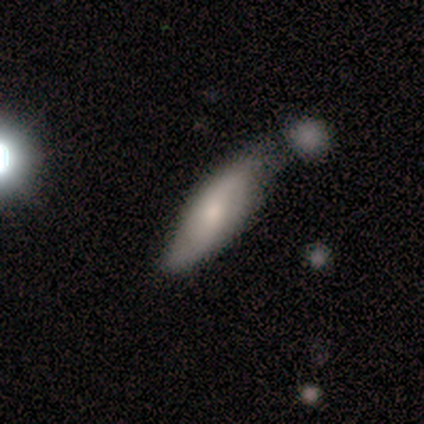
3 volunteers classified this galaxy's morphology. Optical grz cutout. It shows a smooth galaxy with no disk features (67%) that is in between round and cigar-shaped (50%, tied with cigar-shaped). Merging: none (67%).